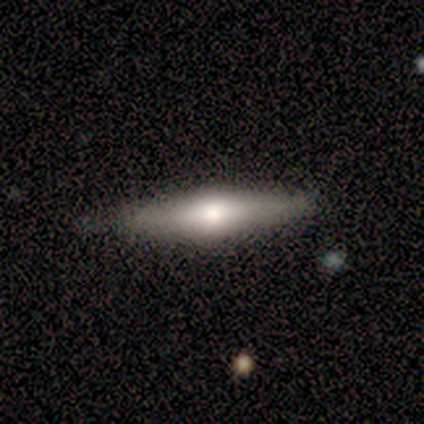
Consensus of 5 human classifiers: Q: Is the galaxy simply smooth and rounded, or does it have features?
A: smooth — 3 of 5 (60%).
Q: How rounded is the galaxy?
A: in between — 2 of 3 (67%).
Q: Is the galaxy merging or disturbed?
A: none — 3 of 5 (60%).